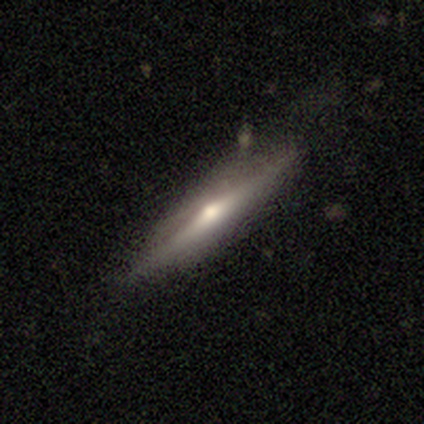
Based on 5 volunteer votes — featured or disk 60%, smooth 40%, star or artifact 0%. Down the decision tree: edge-on disk — yes (100%); edge-on bulge — rounded (100%); merging — none (60%).